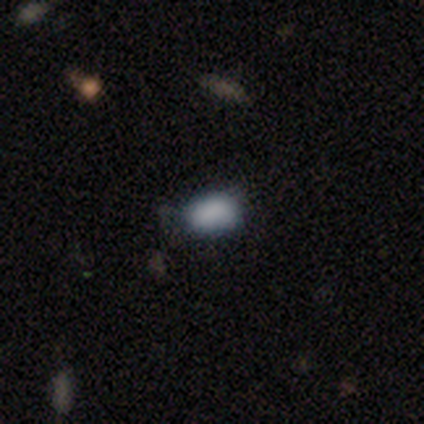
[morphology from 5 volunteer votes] smooth 80%, featured or disk 20%, star or artifact 0%. Down the decision tree: how rounded — in between (100%); merging — none (100%).